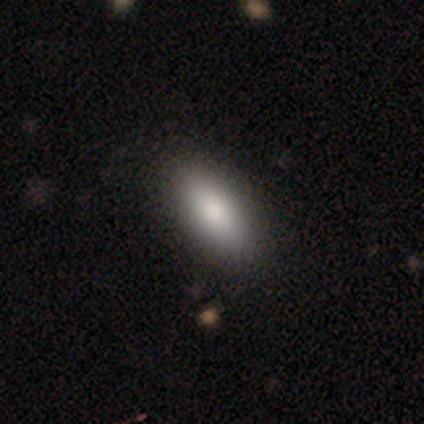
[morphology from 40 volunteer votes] Smooth or featured? smooth (85%)
How rounded? in between (79%)
Merging? none (69%)